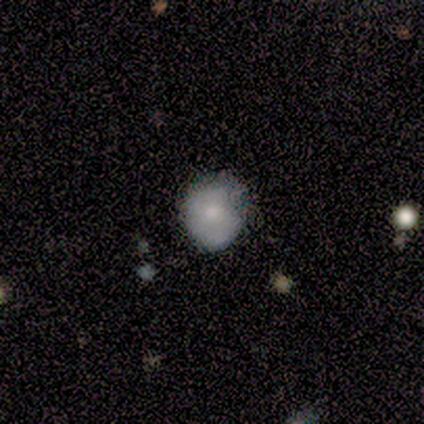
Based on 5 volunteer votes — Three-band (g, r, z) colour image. It shows a featured or disk galaxy (60%) with no bar (100%), no spiral arms (67%) and a moderate central bulge (67%). Merging: none (80%).